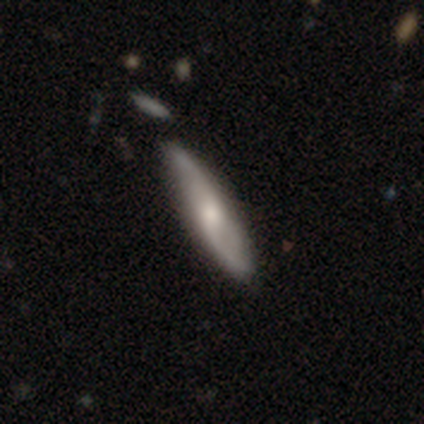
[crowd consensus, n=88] Overall: featured or disk (60%; smooth 36%). Edge-on disk: no (58%; yes 42%). Bar: no (55%; weak 39%). Spiral arms: yes (97%). Spiral arm count: 2 (93%). Spiral winding: loose (73%). Bulge size: moderate (61%; small 29%). Merging: none (81%).